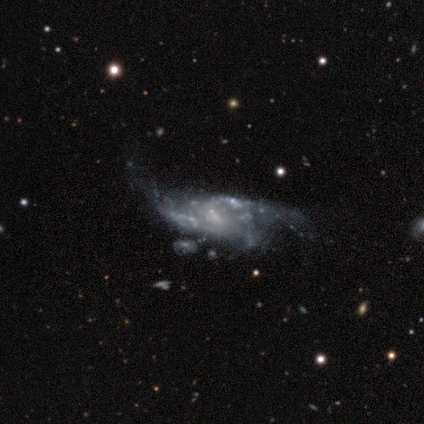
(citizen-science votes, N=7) Smooth or featured?
  - featured or disk: 86% *
  - smooth: 14%
  - star or artifact: 0%
Edge-on disk?
  - no: 100% *
  - yes: 0%
Bar?
  - no: 100% *
  - strong: 0%
  - weak: 0%
Spiral arms?
  - yes: 67% *
  - no: 33%
Spiral winding?
  - medium: 50% * (tied)
  - loose: 50% * (tied)
  - tight: 0%
Spiral arm count?
  - 2: 75% *
  - can't tell: 25%
  - 1: 0%
  - 3: 0%
  - 4: 0%
  - more than 4: 0%
Bulge size?
  - small: 50% * (tied)
  - none: 50% * (tied)
  - dominant: 0%
  - large: 0%
  - moderate: 0%
Merging?
  - major disturbance: 43% *
  - minor disturbance: 29%
  - none: 14%
  - merger: 14%